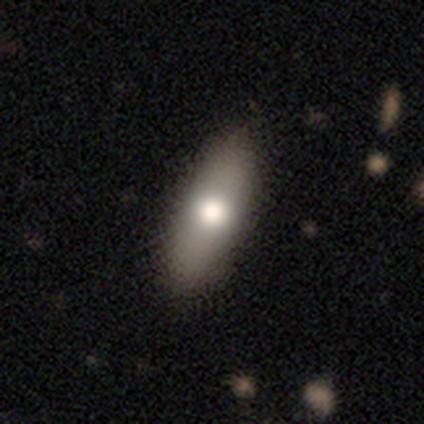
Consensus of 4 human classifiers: Smooth or featured?
  - smooth: 75% *
  - featured or disk: 25%
  - star or artifact: 0%
How rounded?
  - in between: 67% *
  - cigar-shaped: 33%
  - round: 0%
Merging?
  - none: 75% *
  - minor disturbance: 25%
  - major disturbance: 0%
  - merger: 0%